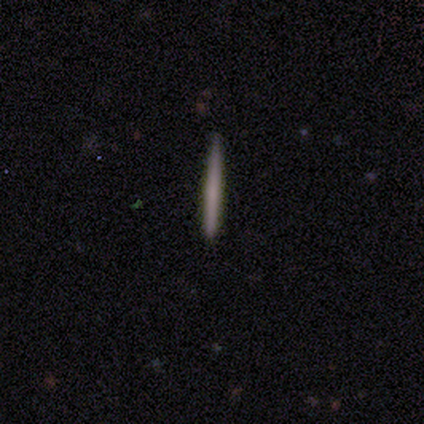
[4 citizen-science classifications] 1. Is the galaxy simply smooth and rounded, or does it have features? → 50% smooth (tied), 50% featured or disk (tied), 0% star or artifact.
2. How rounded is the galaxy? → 100% cigar-shaped, 0% round, 0% in between.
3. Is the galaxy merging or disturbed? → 50% none (tied), 50% minor disturbance (tied), 0% major disturbance, 0% merger.